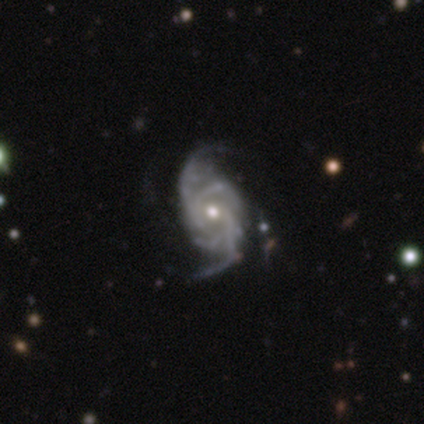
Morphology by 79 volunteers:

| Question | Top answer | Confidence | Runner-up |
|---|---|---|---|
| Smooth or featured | featured or disk | 95% | smooth (3%) |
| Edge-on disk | no | 96% | yes (4%) |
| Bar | no | 64% | weak (31%) |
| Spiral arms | yes | 100% | — |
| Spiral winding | medium | 50% | tight (32%) |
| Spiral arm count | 4 | 36% | 2 (29%) |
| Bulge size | moderate | 60% | small (39%) |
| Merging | none | 31% | minor disturbance (14%) |